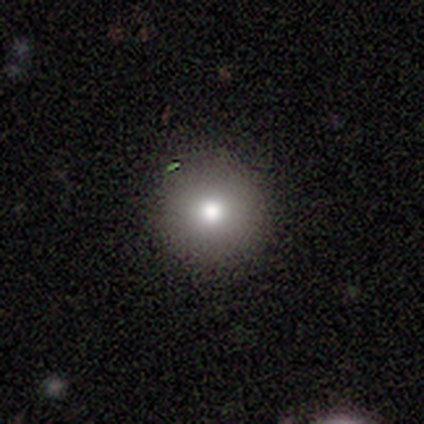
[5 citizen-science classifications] Q: Smooth or featured?
A: smooth (60%); runner-up: featured or disk (20%)
Q: How rounded?
A: round (100%)
Q: Merging?
A: none (100%)